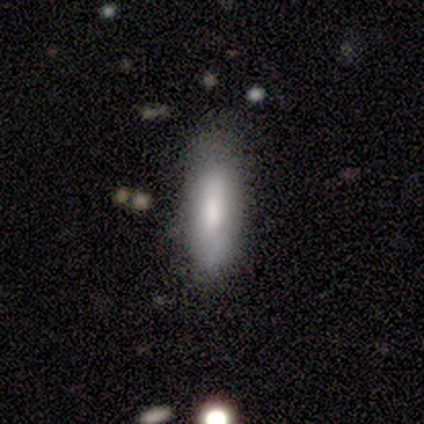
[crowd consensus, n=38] smooth 71%, featured or disk 26%, star or artifact 3%. Down the decision tree: how rounded — cigar-shaped (70%); merging — none (84%).